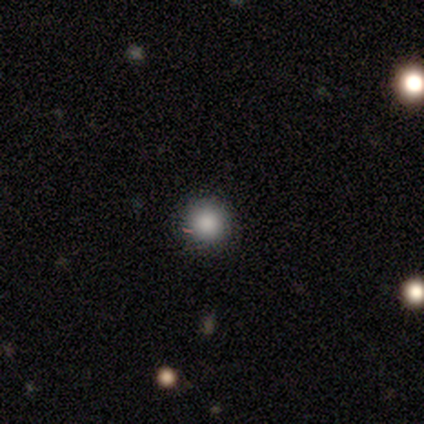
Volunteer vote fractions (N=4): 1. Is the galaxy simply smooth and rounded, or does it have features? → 75% smooth, 25% star or artifact, 0% featured or disk.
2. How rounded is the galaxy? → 100% round, 0% in between, 0% cigar-shaped.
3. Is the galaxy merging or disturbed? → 100% none, 0% minor disturbance, 0% major disturbance, 0% merger.